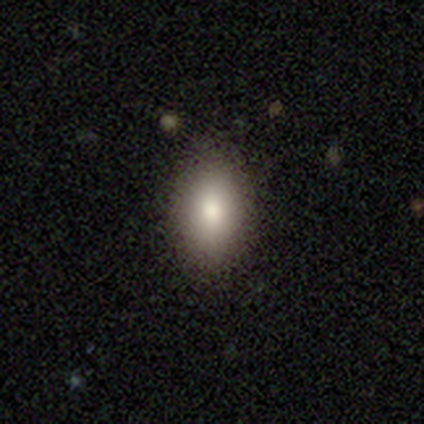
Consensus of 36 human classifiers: This appears to be a smooth galaxy with no disk features (83%) that is in between round and cigar-shaped (87%). Merging: none (94%).